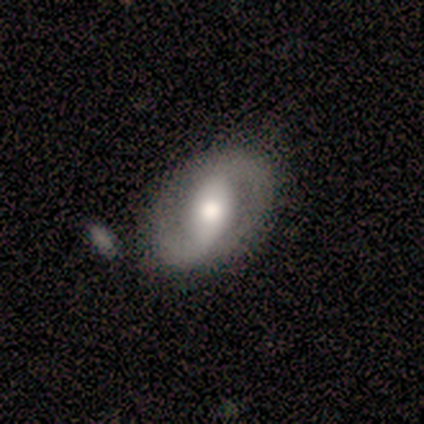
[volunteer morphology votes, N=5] A featured or disk galaxy (80%) with a weak bar (50%), 2 (100%) loose (50%) spiral arms (100%) and a moderate central bulge (75%).

Vote fractions:
- Smooth or featured? featured or disk: 80% / smooth: 20% / star or artifact: 0%
- Edge-on disk? no: 100% / yes: 0%
- Bar? weak: 50% / strong: 25% / no: 25%
- Spiral arms? yes: 100% / no: 0%
- Spiral winding? loose: 50% / tight: 25% / medium: 25%
- Spiral arm count? 2: 100% / 1: 0% / 3: 0% / 4: 0% / more than 4: 0% / can't tell: 0%
- Bulge size? moderate: 75% / large: 25% / dominant: 0% / small: 0% / none: 0%
- Merging? none: 100% / minor disturbance: 0% / major disturbance: 0% / merger: 0%